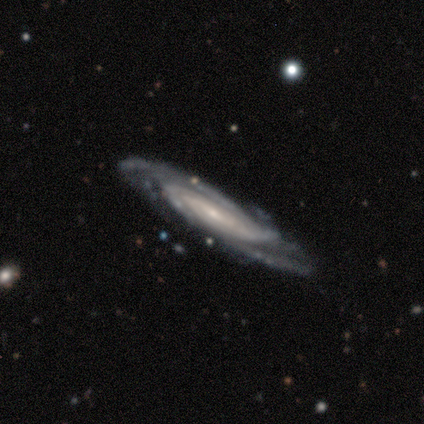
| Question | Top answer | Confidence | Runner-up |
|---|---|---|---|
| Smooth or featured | featured or disk | 100% | — |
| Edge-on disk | no | 100% | — |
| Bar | weak | 60% | no (40%) |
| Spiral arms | yes | 100% | — |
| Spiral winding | tight | 60% | medium (20%) |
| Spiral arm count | can't tell | 40% | 2 (20%) |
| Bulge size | small | 100% | — |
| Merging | none | 100% | — |